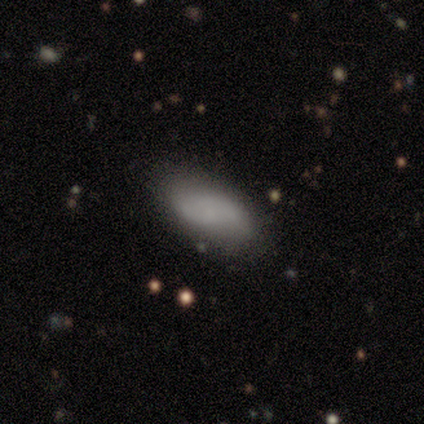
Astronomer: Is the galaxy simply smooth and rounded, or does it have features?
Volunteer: smooth — 50% (runner-up: featured or disk, 38%).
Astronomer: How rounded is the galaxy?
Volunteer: in between — 100%.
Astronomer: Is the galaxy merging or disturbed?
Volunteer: none — 86%.